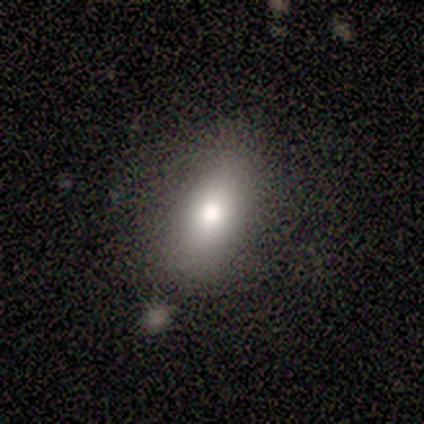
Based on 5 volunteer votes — A smooth galaxy with no disk features (80%) that is in between round and cigar-shaped (100%).

Vote fractions:
- Smooth or featured? smooth: 80% / featured or disk: 20% / star or artifact: 0%
- How rounded? in between: 100% / round: 0% / cigar-shaped: 0%
- Merging? none: 100% / minor disturbance: 0% / major disturbance: 0% / merger: 0%